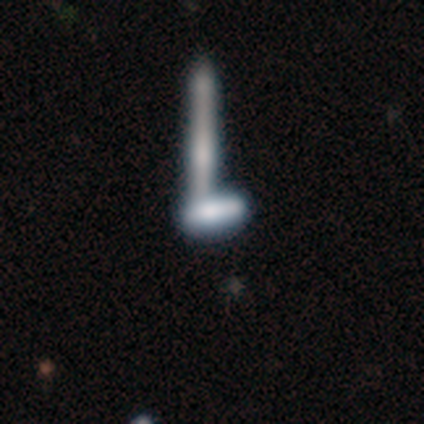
Smooth or featured? 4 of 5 (80%) said smooth. How rounded? 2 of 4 (50%, tied with cigar-shaped) said in between. Merging? 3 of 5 (60%) said none.